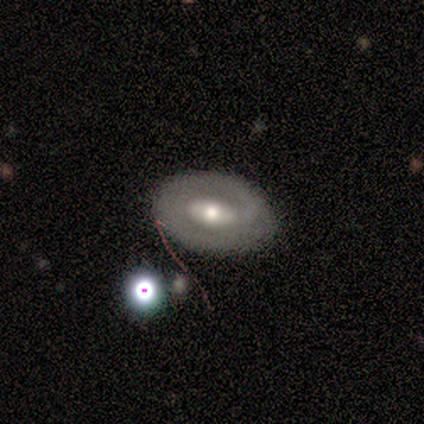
A featured or disk galaxy (67%) with a strong bar (50%), no spiral arms (67%) and a moderate central bulge (83%).

Vote fractions:
- Smooth or featured? featured or disk: 67% / smooth: 22% / star or artifact: 11%
- Edge-on disk? no: 100% / yes: 0%
- Bar? strong: 50% / no: 33% / weak: 17%
- Spiral arms? no: 67% / yes: 33%
- Bulge size? moderate: 83% / none: 17% / dominant: 0% / large: 0% / small: 0%
- Merging? none: 88% / minor disturbance: 12% / major disturbance: 0% / merger: 0%